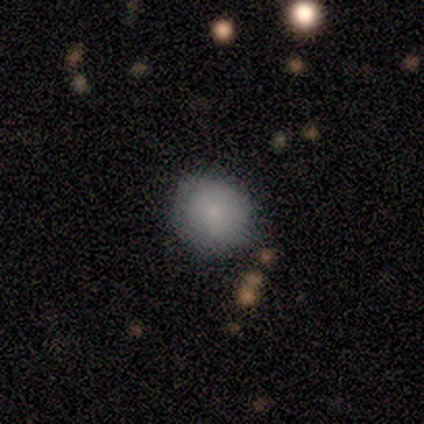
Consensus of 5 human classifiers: smooth-or-featured: smooth: 80% | featured or disk: 20% | star or artifact: 0%
  how-rounded: round: 100% | in between: 0% | cigar-shaped: 0%
  merging: none: 100% | minor disturbance: 0% | major disturbance: 0% | merger: 0%